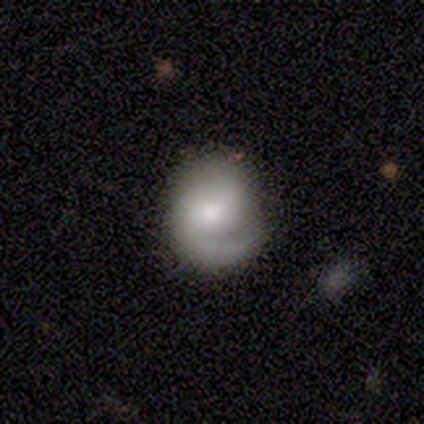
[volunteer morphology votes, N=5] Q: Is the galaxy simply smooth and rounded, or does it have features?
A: featured or disk — 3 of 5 (60%).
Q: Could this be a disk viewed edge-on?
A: no — 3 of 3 (100%).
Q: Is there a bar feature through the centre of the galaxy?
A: no — 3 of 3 (100%).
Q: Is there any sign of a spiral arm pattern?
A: yes — 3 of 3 (100%).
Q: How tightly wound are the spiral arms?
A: tight — 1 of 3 (33%, tied with medium and loose).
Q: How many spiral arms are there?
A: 2 — 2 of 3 (67%).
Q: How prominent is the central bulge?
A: small — 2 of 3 (67%).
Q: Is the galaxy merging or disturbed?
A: none — 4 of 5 (80%).